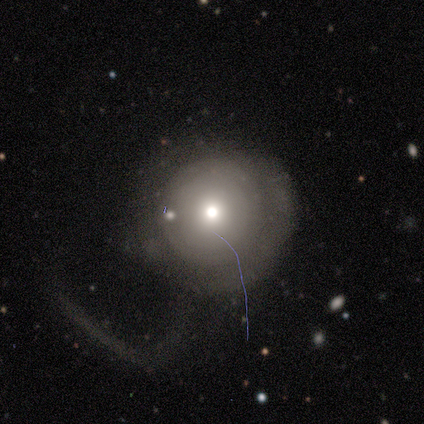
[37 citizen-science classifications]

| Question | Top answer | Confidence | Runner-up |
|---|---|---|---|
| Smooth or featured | smooth | 65% | featured or disk (30%) |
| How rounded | round | 96% | in between (4%) |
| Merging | major disturbance | 46% | none (43%) |